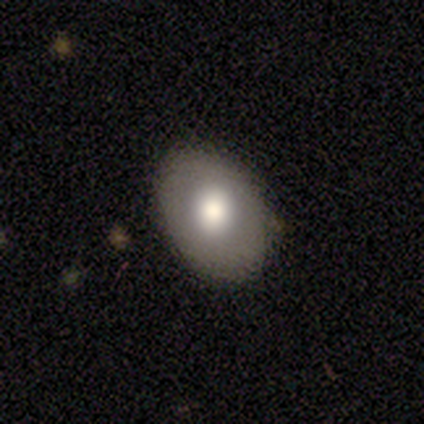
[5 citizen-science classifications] Smooth or featured?
  - smooth: 60% *
  - featured or disk: 20%
  - star or artifact: 20%
How rounded?
  - in between: 100% *
  - round: 0%
  - cigar-shaped: 0%
Merging?
  - none: 50% * (tied)
  - minor disturbance: 50% * (tied)
  - major disturbance: 0%
  - merger: 0%